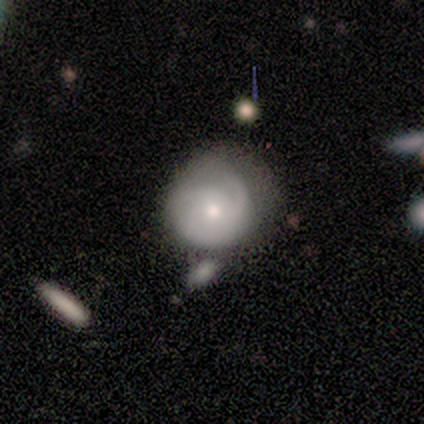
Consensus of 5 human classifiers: Overall: featured or disk (80%). Edge-on disk: no (100%). Bar: no (100%). Spiral arms: yes (100%). Spiral arm count: 1 (50%; 2 25%). Spiral winding: loose (50%; tight 25%). Bulge size: moderate (50%, tied with small). Merging: none (60%; minor disturbance 20%).